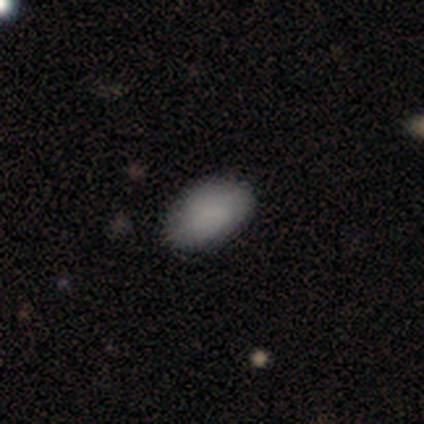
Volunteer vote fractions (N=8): smooth_or_featured: smooth (p=1.00)
how_rounded: in between (p=1.00)
merging: none (p=0.88) [alt: minor disturbance p=0.12]